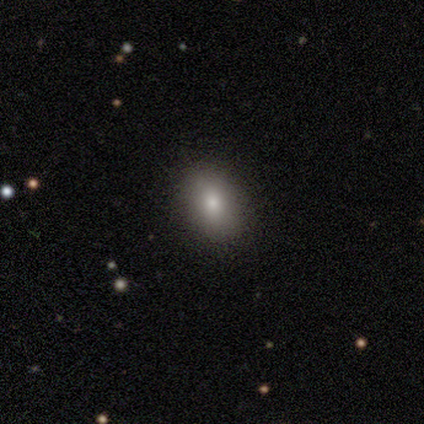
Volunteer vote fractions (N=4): This appears to be a smooth galaxy with no disk features (100%) that is in between round and cigar-shaped (75%). Merging: none (75%).